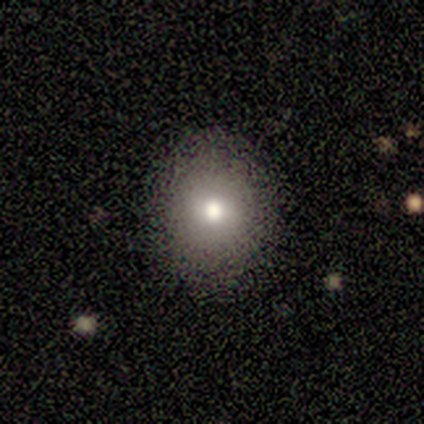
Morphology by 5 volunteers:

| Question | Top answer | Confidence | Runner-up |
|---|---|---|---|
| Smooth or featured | smooth | 80% | featured or disk (20%) |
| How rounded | round | 50% | tied: in between (50%) |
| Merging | none | 100% | — |